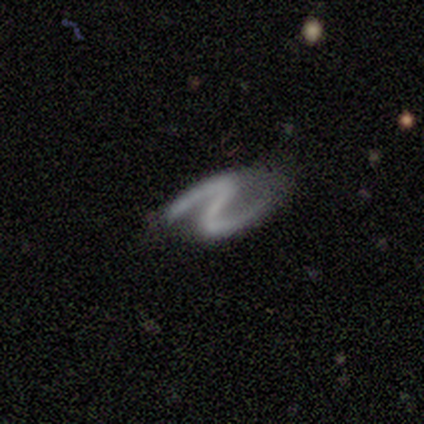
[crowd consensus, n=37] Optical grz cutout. It shows a featured or disk galaxy (89%) with a strong bar (58%), 2 (97%) loose (52%) spiral arms (94%) and no central bulge (76%). Merging: none (59%).